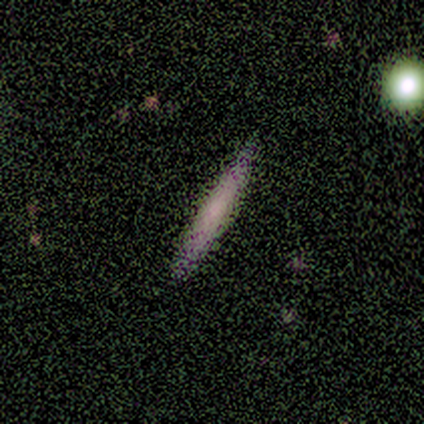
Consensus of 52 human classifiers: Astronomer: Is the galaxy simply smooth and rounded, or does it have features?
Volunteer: smooth — 48%, tied with featured or disk at 48%.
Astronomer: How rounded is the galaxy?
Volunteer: cigar-shaped — 92%.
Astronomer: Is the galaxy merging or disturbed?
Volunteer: none — 80%.